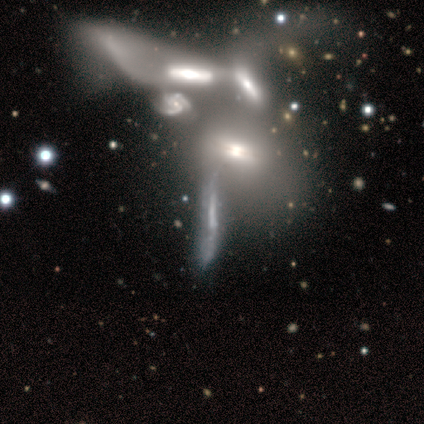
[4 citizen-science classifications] A featured or disk galaxy (100%) viewed edge-on (50%, tied with no) with a rounded central bulge (100%).

Vote fractions:
- Smooth or featured? featured or disk: 100% / smooth: 0% / star or artifact: 0%
- Edge-on disk? yes: 50% (tied) / no: 50% (tied)
- Edge-on bulge? rounded: 100% / boxy: 0% / none: 0%
- Merging? merger: 75% / major disturbance: 25% / none: 0% / minor disturbance: 0%